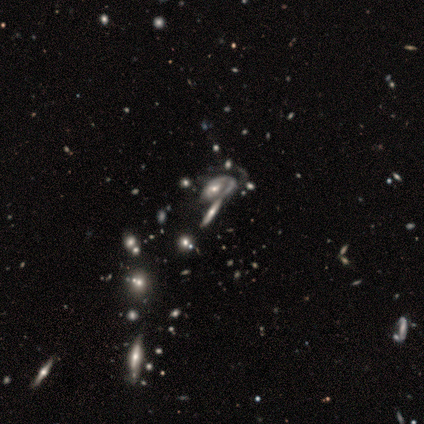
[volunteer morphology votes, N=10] Overall: featured or disk (50%; smooth 30%). Edge-on disk: no (80%). Bar: no (75%). Spiral arms: yes (75%). Spiral arm count: 1 (33%, tied with 3 and can't tell). Spiral winding: tight (33%, tied with medium and loose). Bulge size: moderate (50%, tied with small). Merging: none (38%, tied with merger).